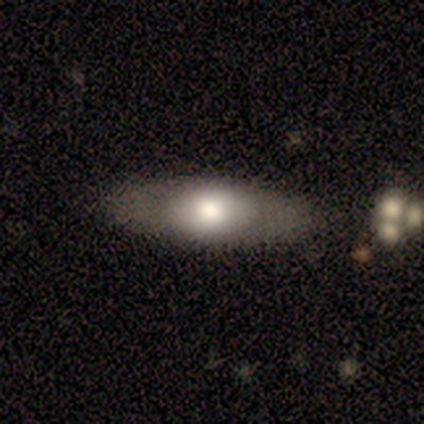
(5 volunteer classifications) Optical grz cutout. It shows a featured or disk galaxy (60%) viewed edge-on (100%) with a rounded central bulge (67%). Merging: none (100%).